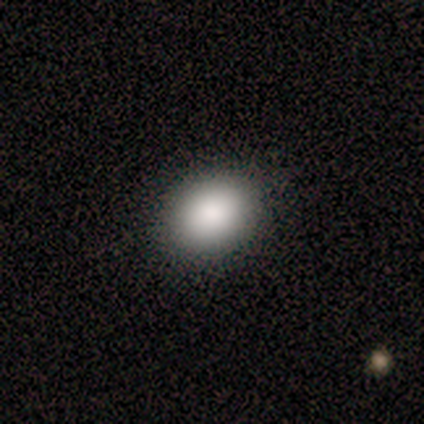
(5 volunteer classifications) smooth-or-featured: smooth: 100% | featured or disk: 0% | star or artifact: 0%
  how-rounded: in between: 60% | round: 40% | cigar-shaped: 0%
  merging: none: 60% | minor disturbance: 40% | major disturbance: 0% | merger: 0%